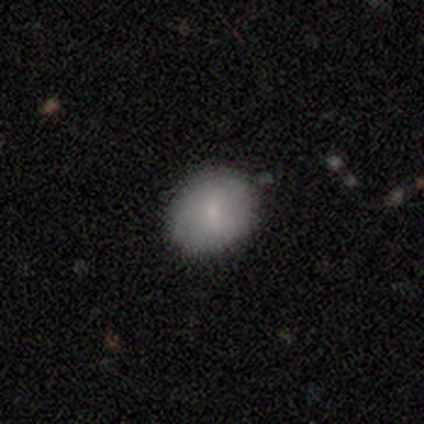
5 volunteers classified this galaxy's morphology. This appears to be a smooth galaxy with no disk features (100%) that is in between round and cigar-shaped (60%). Merging: none (80%).